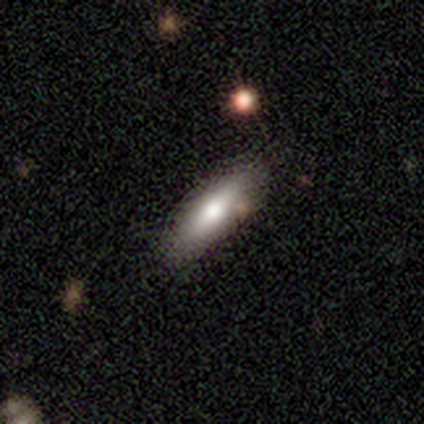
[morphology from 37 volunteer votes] Volunteers were most divided on "how rounded": cigar-shaped: 56%, in between: 44%, round: 0%. More confident: merging — none (86%); smooth or featured — smooth (73%).